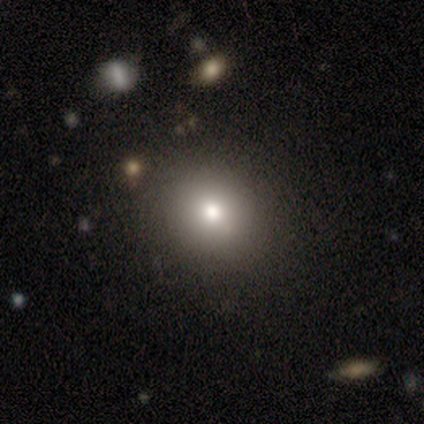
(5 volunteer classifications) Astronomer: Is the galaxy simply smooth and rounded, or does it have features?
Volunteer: smooth — 100%.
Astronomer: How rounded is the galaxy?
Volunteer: round — 60% (runner-up: in between, 40%).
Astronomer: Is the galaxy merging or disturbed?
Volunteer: none — 100%.